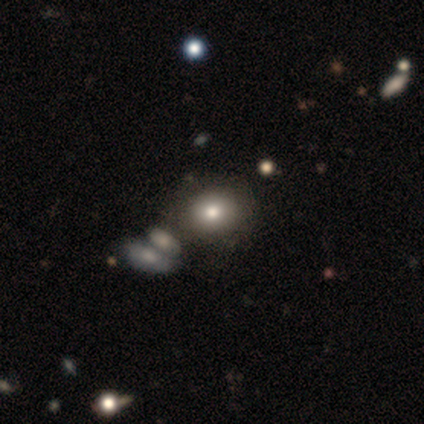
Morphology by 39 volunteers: This appears to be a smooth galaxy with no disk features (79%) that is round (74%). Merging: none (54%).